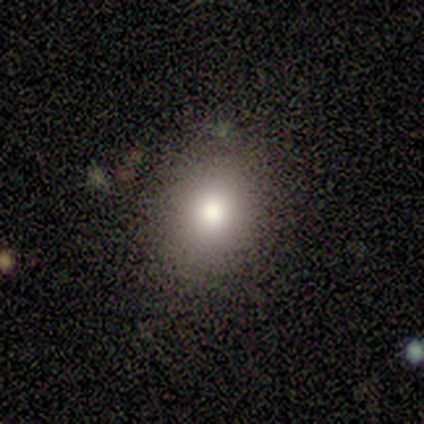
A smooth galaxy with no disk features (80%) that is round (50%, tied with in between). Merging: none (100%).